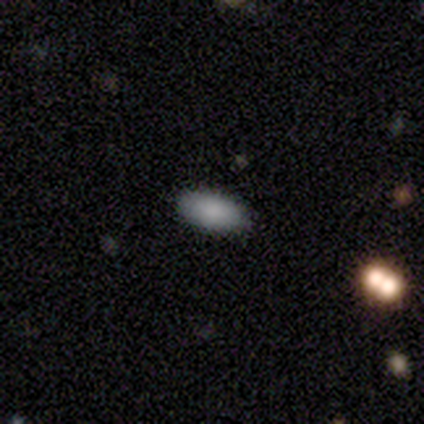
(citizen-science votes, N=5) Q: Smooth or featured?
A: smooth (100%)
Q: How rounded?
A: in between (80%); runner-up: cigar-shaped (20%)
Q: Merging?
A: none (80%); runner-up: merger (20%)